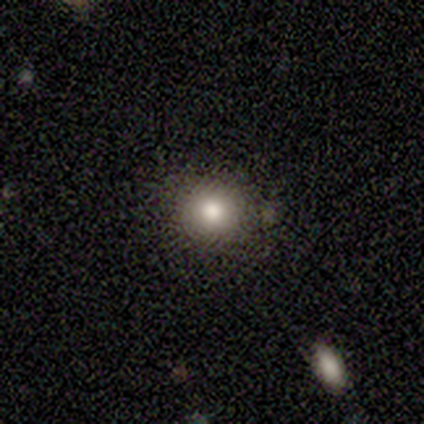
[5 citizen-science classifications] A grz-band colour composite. It shows a smooth galaxy with no disk features (80%) that is round (100%). Merging: none (75%).